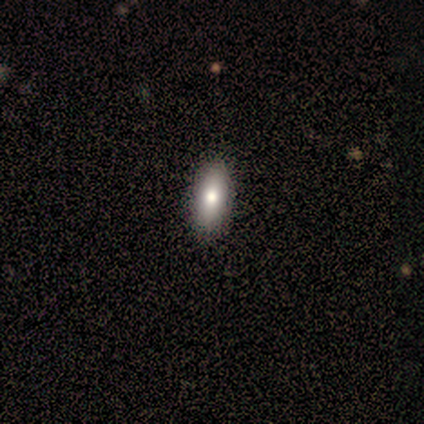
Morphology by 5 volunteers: Volunteers were most divided on "smooth or featured" (2-way tie): smooth: 40%, featured or disk: 40%, star or artifact: 20%. More confident: how rounded — in between (100%); merging — none (100%).